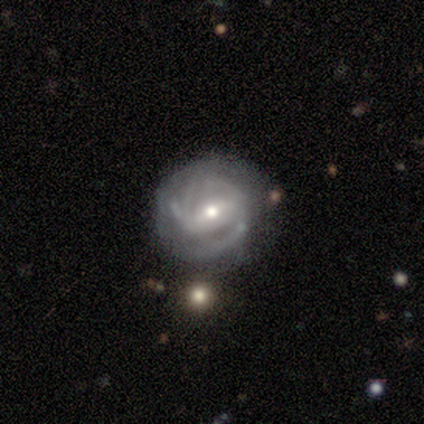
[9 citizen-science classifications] Smooth or featured? featured or disk (89%)
Edge-on disk? no (88%)
Bar? strong (43%, tied with no)
Spiral arms? yes (71%)
Spiral winding? tight (60%)
Spiral arm count? can't tell (60%)
Bulge size? small (86%)
Merging? none (89%)